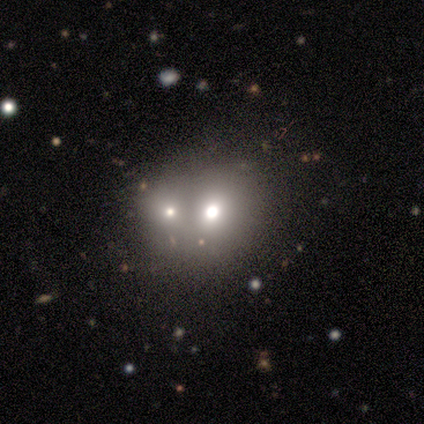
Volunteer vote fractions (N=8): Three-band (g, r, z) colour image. It shows a smooth galaxy with no disk features (75%) that is round (83%). Merging: merger (100%).